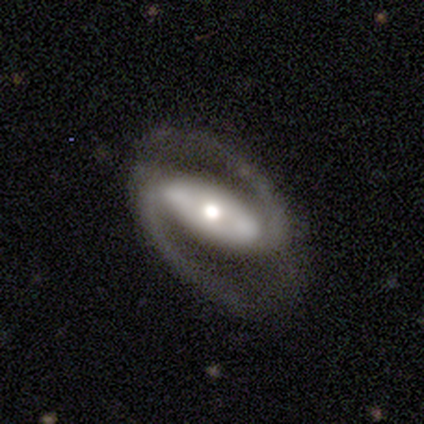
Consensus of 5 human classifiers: This is clearly a featured or disk galaxy (100%). It is clearly not viewed edge-on (100%). Bar: clearly strong (100%). Spiral arm pattern: clearly yes (100%). Spiral arm count: clearly 2 (100%). Spiral winding: clearly medium (80%). Central bulge: clearly moderate (100%). Merging: clearly none (100%).